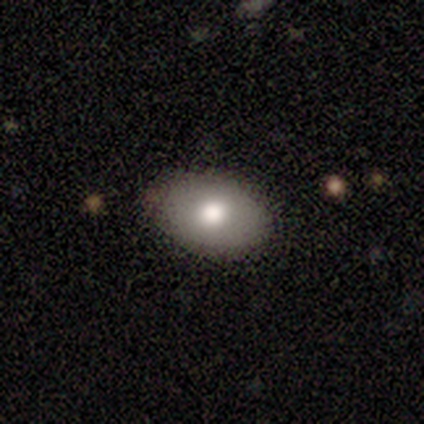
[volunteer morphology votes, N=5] Smooth or featured? 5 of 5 (100%) said smooth. How rounded? 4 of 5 (80%) said in between. Merging? 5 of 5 (100%) said none.